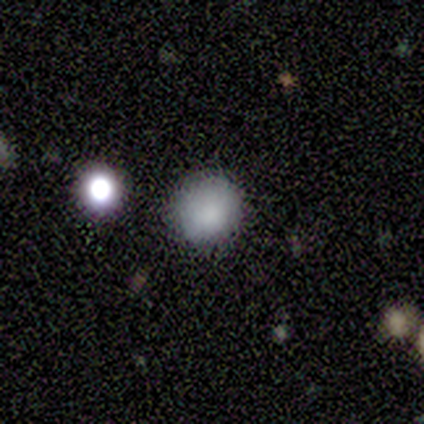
Q: Smooth or featured?
A: smooth (100%)
Q: How rounded?
A: round (100%)
Q: Merging?
A: none (60%); runner-up: minor disturbance (40%)